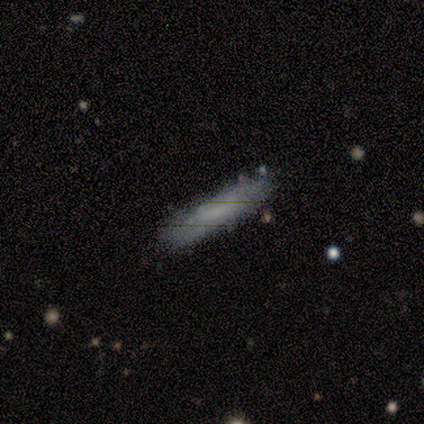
This appears to be a smooth galaxy with no disk features (64%) that is cigar-shaped (84%). Merging: none (82%).